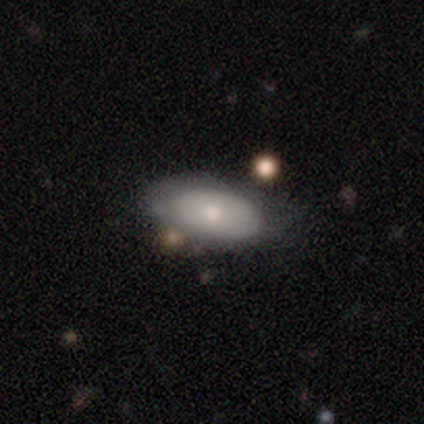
Q: Smooth or featured?
A: smooth (69%); runner-up: featured or disk (29%)
Q: How rounded?
A: in between (95%); runner-up: round (4%)
Q: Merging?
A: none (26%); runner-up: minor disturbance (21%)